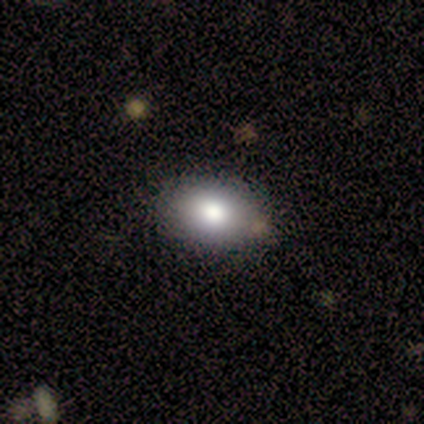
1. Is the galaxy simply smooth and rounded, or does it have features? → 88% smooth, 12% featured or disk, 0% star or artifact.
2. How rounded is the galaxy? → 100% in between, 0% round, 0% cigar-shaped.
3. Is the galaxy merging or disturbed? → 100% none, 0% minor disturbance, 0% major disturbance, 0% merger.